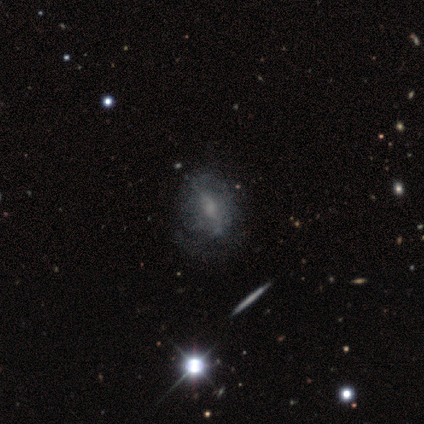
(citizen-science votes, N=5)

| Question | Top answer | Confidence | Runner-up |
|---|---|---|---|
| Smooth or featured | star or artifact | 60% | smooth (20%) |